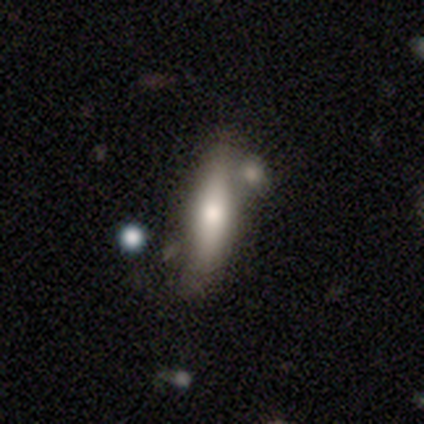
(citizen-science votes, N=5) A smooth galaxy with no disk features (80%) that is cigar-shaped (100%). Merging: merger (50%).